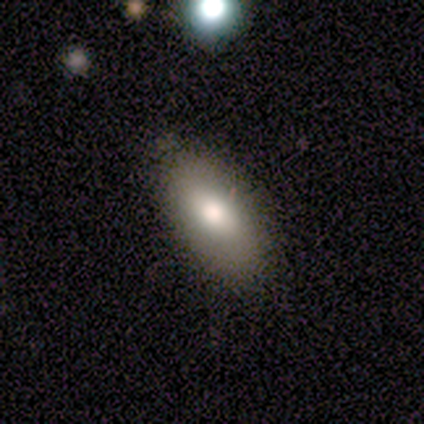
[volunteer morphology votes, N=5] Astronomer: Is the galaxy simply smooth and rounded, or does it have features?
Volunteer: smooth — 100%.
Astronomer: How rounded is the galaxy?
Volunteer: in between — 100%.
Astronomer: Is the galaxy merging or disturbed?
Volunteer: none — 100%.